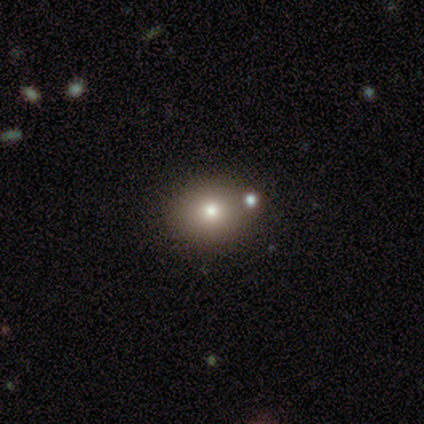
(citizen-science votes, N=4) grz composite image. It shows a smooth galaxy with no disk features (50%, tied with star or artifact) that is round (100%). Merging: minor disturbance (50%, tied with merger).